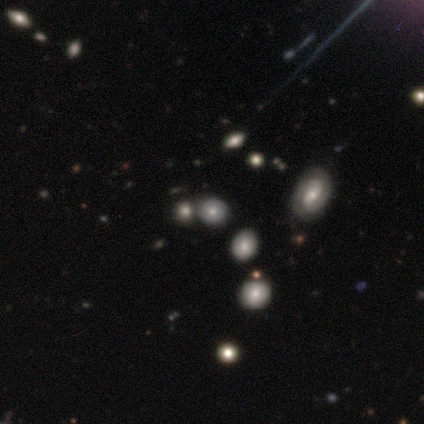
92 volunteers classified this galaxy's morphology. This is possibly a smooth galaxy (46%). How rounded: likely round (64%). Merging: likely none (60%).